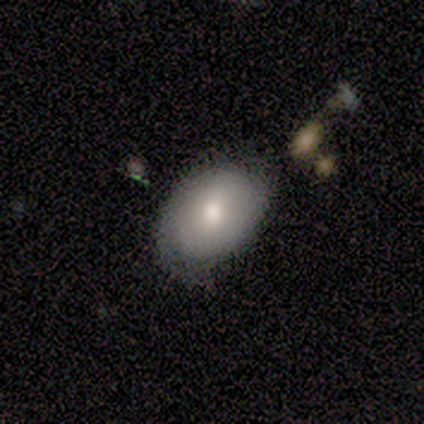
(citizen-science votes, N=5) Smooth or featured? 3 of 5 (60%) said smooth. How rounded? 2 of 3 (67%) said in between. Merging? 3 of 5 (60%) said none.